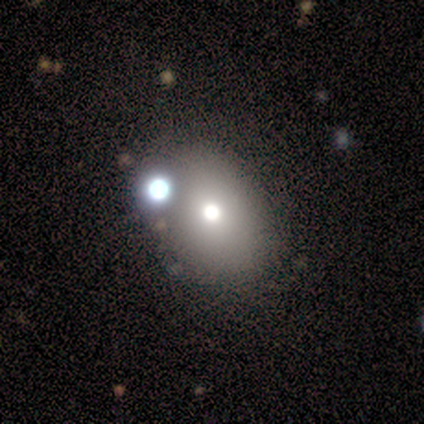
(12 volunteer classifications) smooth 75%, featured or disk 25%, star or artifact 0%. Down the decision tree: how rounded — in between (56%); merging — none (58%).